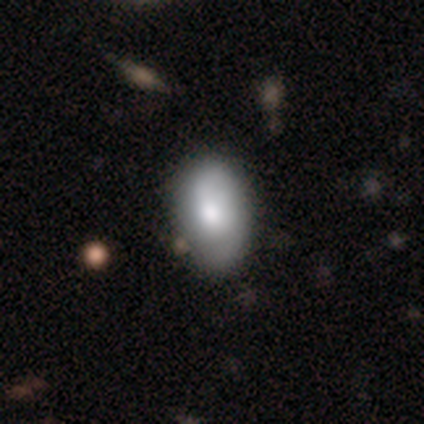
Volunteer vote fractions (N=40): smooth-or-featured: smooth: 48% | featured or disk: 45% | star or artifact: 8%
  how-rounded: in between: 100% | round: 0% | cigar-shaped: 0%
  merging: none: 54% | minor disturbance: 24% | major disturbance: 3% | merger: 3%